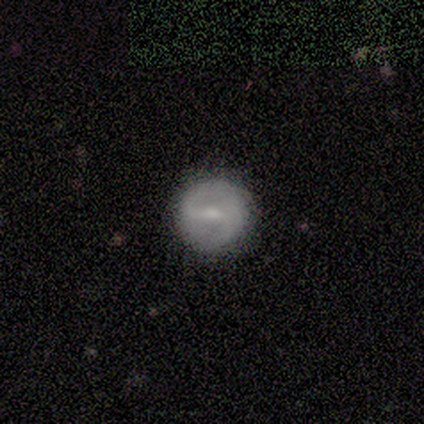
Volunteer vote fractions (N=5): This is clearly a featured or disk galaxy (80%). It is clearly not viewed edge-on (100%). Bar: likely weak (75%). Spiral arm pattern: possibly yes (50%, tied with no). Spiral arm count: clearly 2 (100%). Spiral winding: possibly tight (50%, tied with medium). Central bulge: possibly none (50%). Merging: clearly none (100%).